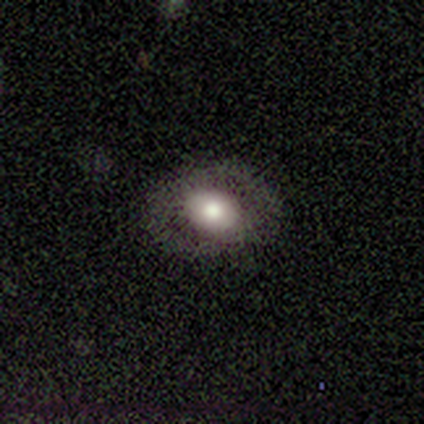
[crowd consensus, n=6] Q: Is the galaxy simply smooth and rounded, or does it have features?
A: smooth — 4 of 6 (67%).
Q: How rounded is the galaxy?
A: in between — 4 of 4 (100%).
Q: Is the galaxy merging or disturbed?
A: none — 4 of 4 (100%).